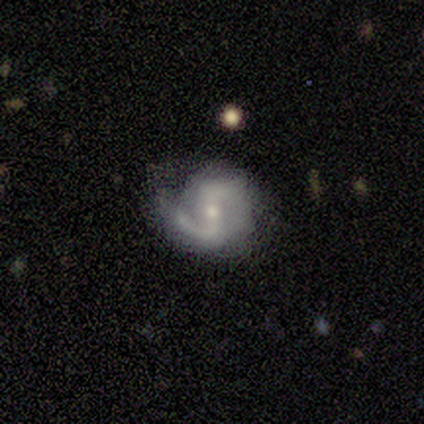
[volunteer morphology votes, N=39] type=featured or disk (92%); edge-on=no (100%); bar=strong (44%); spiral arms=yes (100%); winding=medium (44%, tied with loose); arm count=2 (86%); bulge=small (61%); merging=none (70%).